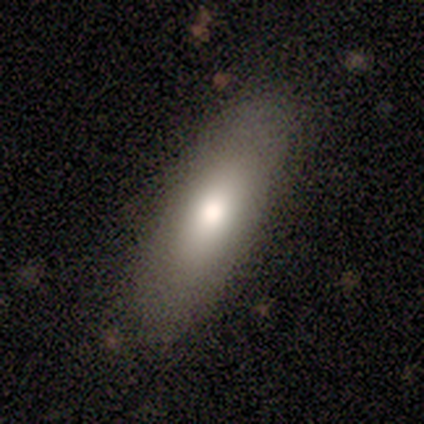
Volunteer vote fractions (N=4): Overall: smooth (75%). How rounded: cigar-shaped (67%; in between 33%). Merging: none (100%).